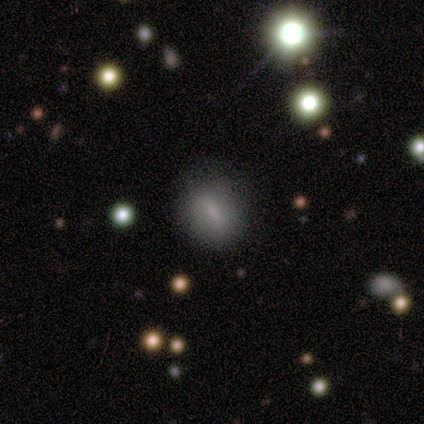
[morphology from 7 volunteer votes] Overall: featured or disk (43%; smooth 29%). Edge-on disk: no (100%). Bar: no (67%; strong 33%). Spiral arms: yes (67%; no 33%). Spiral arm count: 2 (100%). Spiral winding: loose (100%). Bulge size: small (67%; moderate 33%). Merging: none (80%).